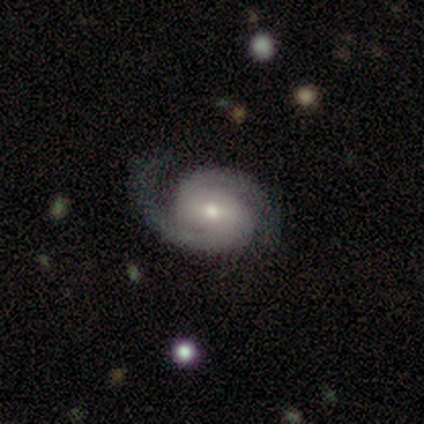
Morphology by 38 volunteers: type=featured or disk (92%); edge-on=no (97%); bar=strong (35%, tied with weak); spiral arms=yes (97%); winding=tight (42%); arm count=2 (100%); bulge=moderate (59%); merging=none (63%).